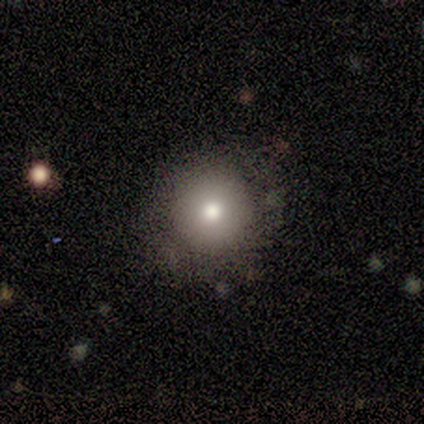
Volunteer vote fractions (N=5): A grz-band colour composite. It shows a smooth galaxy with no disk features (80%) that is round (100%). Merging: none (100%).